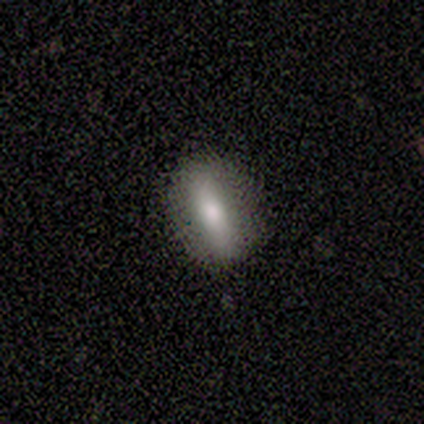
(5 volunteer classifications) Smooth or featured?
  - smooth: 100% *
  - featured or disk: 0%
  - star or artifact: 0%
How rounded?
  - in between: 60% *
  - cigar-shaped: 40%
  - round: 0%
Merging?
  - none: 60% *
  - minor disturbance: 40%
  - major disturbance: 0%
  - merger: 0%